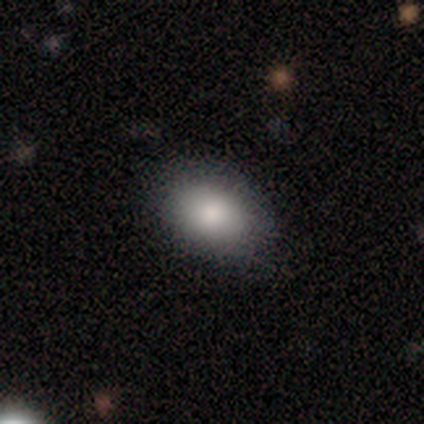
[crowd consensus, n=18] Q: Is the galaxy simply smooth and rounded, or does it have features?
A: smooth — 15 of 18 (83%).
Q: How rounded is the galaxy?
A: in between — 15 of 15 (100%).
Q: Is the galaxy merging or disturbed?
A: none — 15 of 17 (88%).